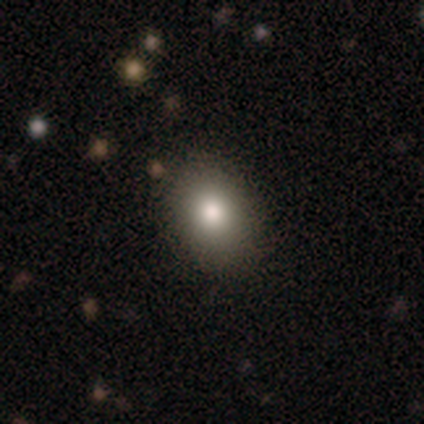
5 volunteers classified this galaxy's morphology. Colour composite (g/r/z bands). It shows a smooth galaxy with no disk features (100%) that is in between round and cigar-shaped (60%). Merging: none (100%).